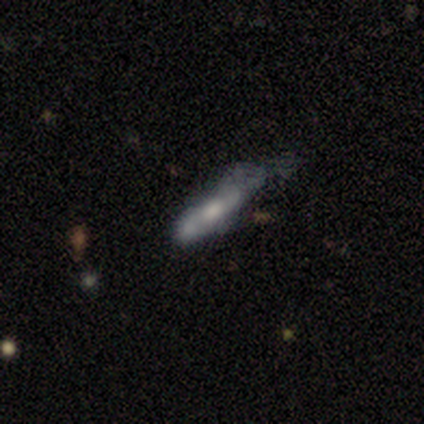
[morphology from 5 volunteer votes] Q: Smooth or featured?
A: featured or disk (60%); runner-up: smooth (40%)
Q: Edge-on disk?
A: no (67%); runner-up: yes (33%)
Q: Bar?
A: weak (100%)
Q: Spiral arms?
A: yes (50%); tied with: no (50%)
Q: Spiral winding?
A: medium (100%)
Q: Spiral arm count?
A: 2 (100%)
Q: Bulge size?
A: moderate (100%)
Q: Merging?
A: none (40%); tied with: merger (40%)